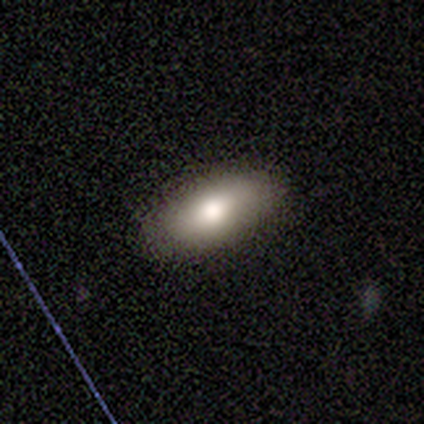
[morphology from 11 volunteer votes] type=smooth (82%); roundness=in between (67%); merging=none (70%).